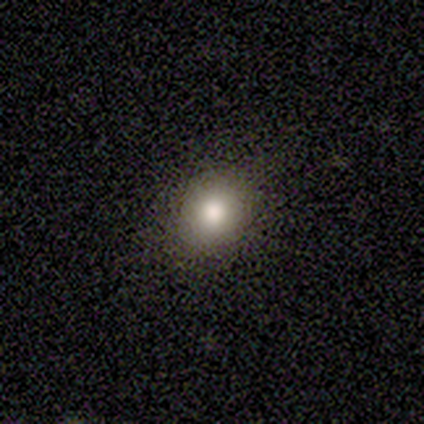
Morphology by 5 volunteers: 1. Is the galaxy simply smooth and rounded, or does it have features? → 80% smooth, 20% star or artifact, 0% featured or disk.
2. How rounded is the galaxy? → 75% round, 25% in between, 0% cigar-shaped.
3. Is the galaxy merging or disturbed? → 100% none, 0% minor disturbance, 0% major disturbance, 0% merger.